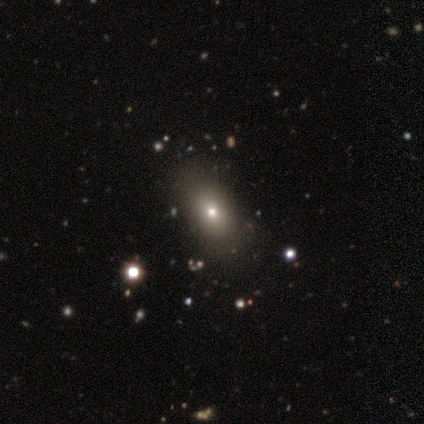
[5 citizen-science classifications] A star or artifact, not a galaxy (80%).

Vote fractions:
- Smooth or featured? star or artifact: 80% / smooth: 20% / featured or disk: 0%